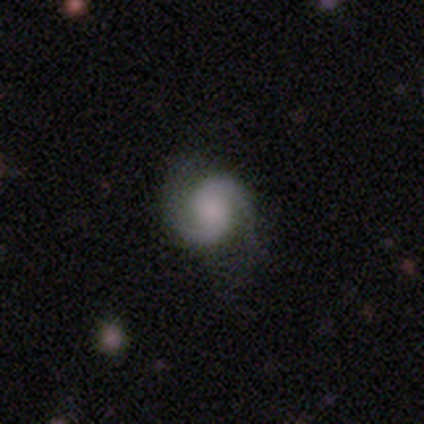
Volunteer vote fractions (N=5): Q: Smooth or featured?
A: featured or disk (100%)
Q: Edge-on disk?
A: no (100%)
Q: Bar?
A: no (80%); runner-up: weak (20%)
Q: Spiral arms?
A: yes (100%)
Q: Spiral winding?
A: tight (60%); runner-up: medium (20%)
Q: Spiral arm count?
A: 2 (100%)
Q: Bulge size?
A: large (40%); tied with: none (40%)
Q: Merging?
A: none (100%)